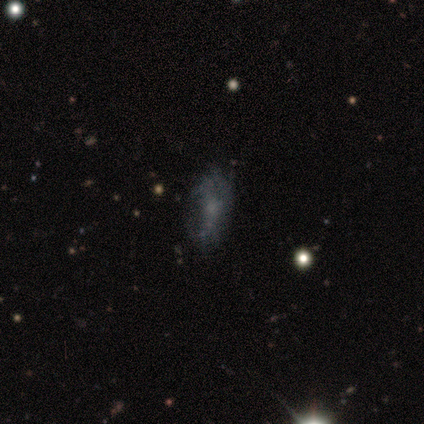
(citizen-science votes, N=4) Overall: featured or disk (75%). Edge-on disk: no (100%). Bar: no (67%; strong 33%). Spiral arms: yes (67%; no 33%). Spiral arm count: 2 (50%, tied with can't tell). Spiral winding: medium (50%, tied with loose). Bulge size: moderate (33%, tied with small and none). Merging: minor disturbance (67%; none 33%).